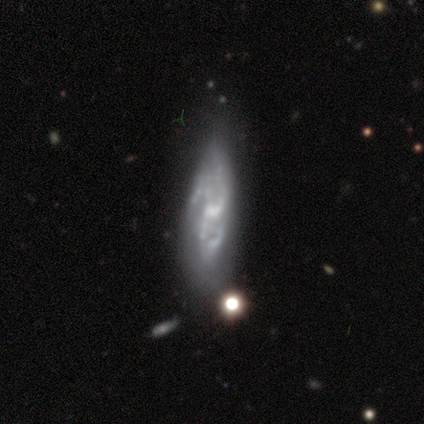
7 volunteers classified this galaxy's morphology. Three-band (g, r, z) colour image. It shows a featured or disk galaxy (100%) with a weak bar (67%), 3 (83%) medium (67%) spiral arms (100%) and a small central bulge (67%). Merging: none (57%).